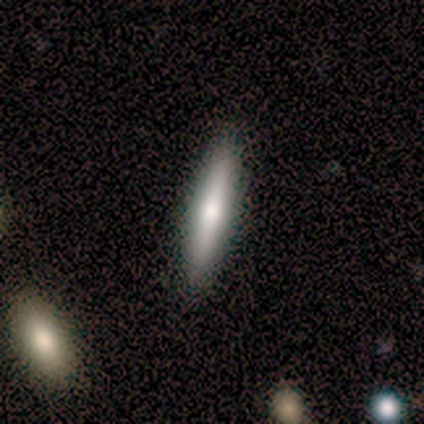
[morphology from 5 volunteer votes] smooth-or-featured: featured or disk: 60% | smooth: 40% | star or artifact: 0%
  disk-edge-on: yes: 67% | no: 33%
    edge-on-bulge: rounded: 100% | boxy: 0% | none: 0%
  merging: none: 60% | minor disturbance: 40% | major disturbance: 0% | merger: 0%